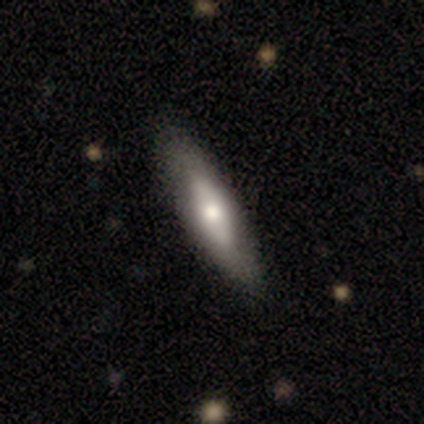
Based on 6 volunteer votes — Smooth or featured?
  - featured or disk: 67% *
  - smooth: 33%
  - star or artifact: 0%
Edge-on disk?
  - yes: 50% * (tied)
  - no: 50% * (tied)
Edge-on bulge?
  - rounded: 100% *
  - boxy: 0%
  - none: 0%
Merging?
  - none: 100% *
  - minor disturbance: 0%
  - major disturbance: 0%
  - merger: 0%